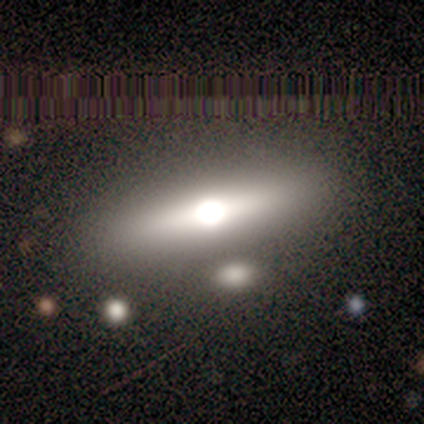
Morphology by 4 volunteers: smooth_or_featured: featured or disk (p=1.00)
disk_edge_on: yes (p=0.75) [alt: no p=0.25]
edge_on_bulge: rounded (p=1.00)
merging: none (p=0.75) [alt: minor disturbance p=0.25]